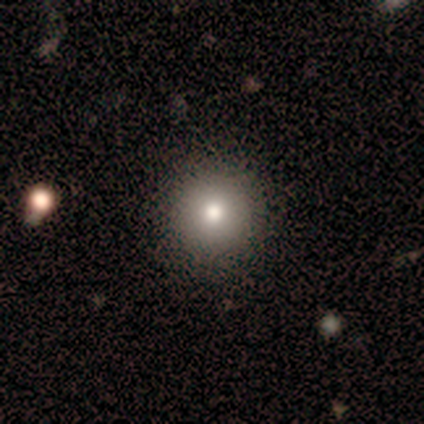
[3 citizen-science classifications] This appears to be a smooth galaxy with no disk features (67%) that is round (100%). Merging: none (100%).